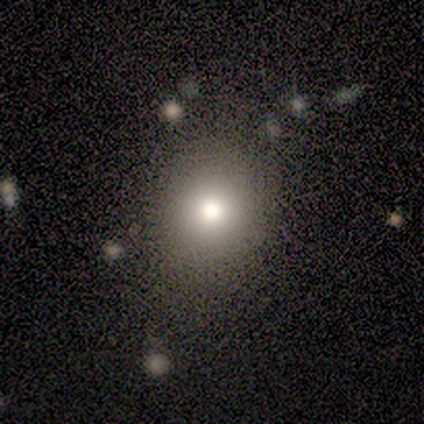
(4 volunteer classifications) Smooth or featured? smooth (75%)
How rounded? round (100%)
Merging? none (75%)